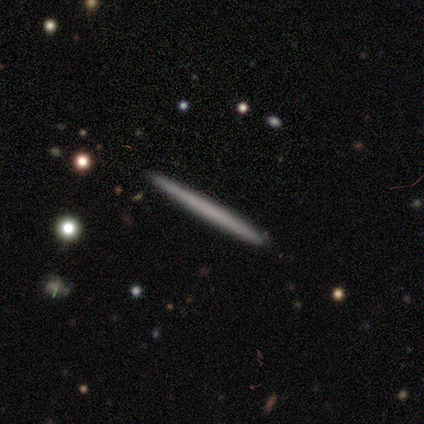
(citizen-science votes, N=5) Smooth or featured: smooth — 60% (featured or disk — 20%)
How rounded: cigar-shaped — 100%
Merging: none — 75% (minor disturbance — 25%)